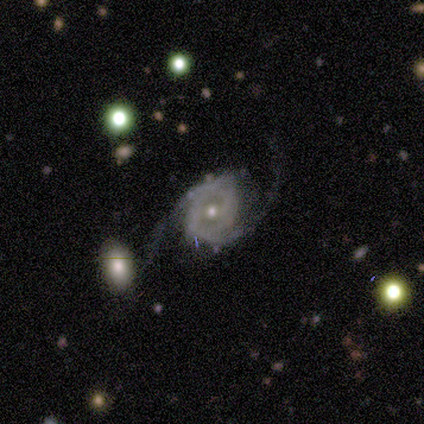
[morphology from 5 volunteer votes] featured or disk 80%, smooth 20%, star or artifact 0%. Down the decision tree: edge-on disk — no (100%); bar — no (75%); spiral arms — yes (100%); spiral arm count — 2 (100%); spiral winding — loose (75%); bulge size — small (75%); merging — none (60%).